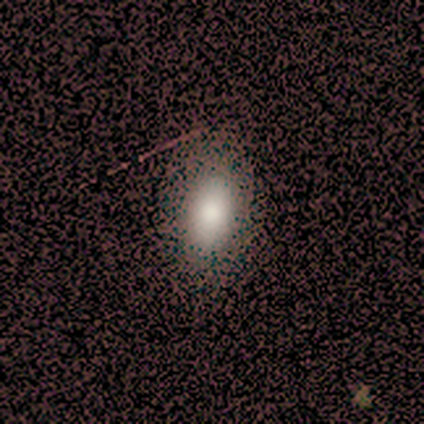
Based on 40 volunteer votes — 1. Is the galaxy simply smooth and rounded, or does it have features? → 80% smooth, 12% featured or disk, 8% star or artifact.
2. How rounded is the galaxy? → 97% in between, 3% round, 0% cigar-shaped.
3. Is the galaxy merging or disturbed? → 59% none, 11% minor disturbance, 3% merger, 0% major disturbance.